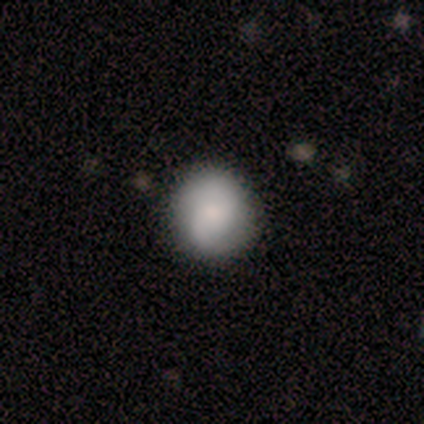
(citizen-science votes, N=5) Smooth or featured: smooth — 60% (featured or disk — 40%)
How rounded: round — 67% (in between — 33%)
Merging: none — 100%